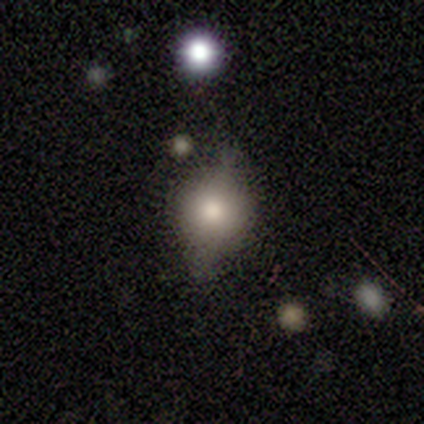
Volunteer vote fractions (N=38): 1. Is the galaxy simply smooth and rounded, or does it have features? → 76% smooth, 16% featured or disk, 8% star or artifact.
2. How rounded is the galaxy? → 59% round, 38% in between, 3% cigar-shaped.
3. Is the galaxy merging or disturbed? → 54% none, 31% minor disturbance, 14% major disturbance, 0% merger.